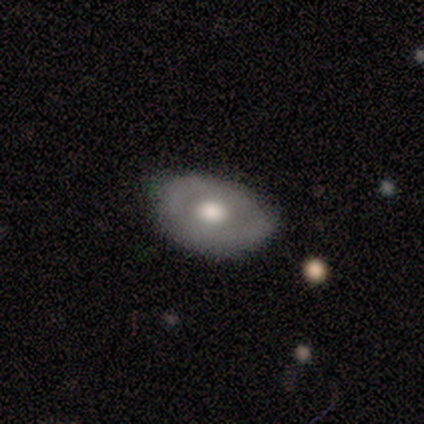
Q: Smooth or featured?
A: featured or disk (60%); runner-up: smooth (40%)
Q: Edge-on disk?
A: no (100%)
Q: Bar?
A: no (100%)
Q: Spiral arms?
A: no (67%); runner-up: yes (33%)
Q: Bulge size?
A: large (33%); tied with: moderate (33%); small (33%)
Q: Merging?
A: none (60%); runner-up: minor disturbance (40%)